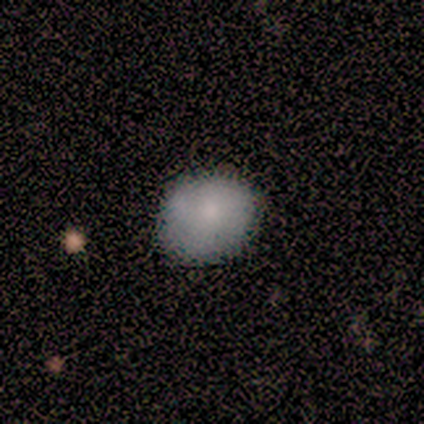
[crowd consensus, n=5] smooth-or-featured: smooth: 60% | featured or disk: 40% | star or artifact: 0%
  how-rounded: in between: 67% | round: 33% | cigar-shaped: 0%
  merging: minor disturbance: 60% | none: 40% | major disturbance: 0% | merger: 0%